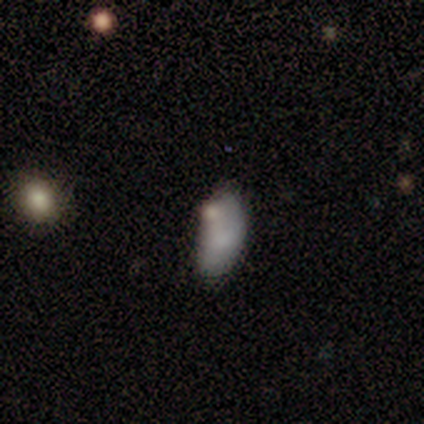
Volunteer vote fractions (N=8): Smooth or featured? 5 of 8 (62%) said smooth. How rounded? 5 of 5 (100%) said in between. Merging? 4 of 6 (67%) said minor disturbance.